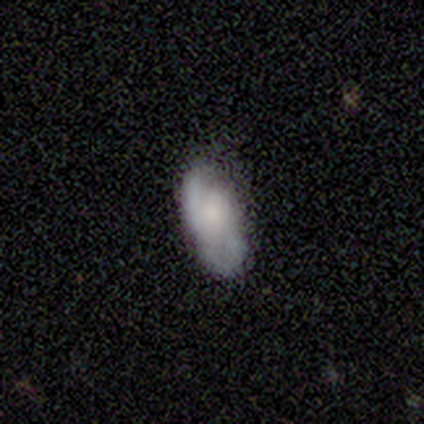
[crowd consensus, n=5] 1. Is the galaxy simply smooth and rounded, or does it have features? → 60% featured or disk, 20% smooth, 20% star or artifact.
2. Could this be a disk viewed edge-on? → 100% no, 0% yes.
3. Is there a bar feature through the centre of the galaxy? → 67% no, 33% weak, 0% strong.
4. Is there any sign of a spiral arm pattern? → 100% yes, 0% no.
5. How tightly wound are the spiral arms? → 33% tight (tied), 33% medium (tied), 33% loose (tied).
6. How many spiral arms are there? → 67% 2, 33% can't tell, 0% 1, 0% 3, 0% 4, 0% more than 4.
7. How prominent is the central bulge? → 33% large (tied), 33% moderate (tied), 33% none (tied), 0% dominant, 0% small.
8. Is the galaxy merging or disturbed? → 50% major disturbance, 25% none, 25% minor disturbance, 0% merger.